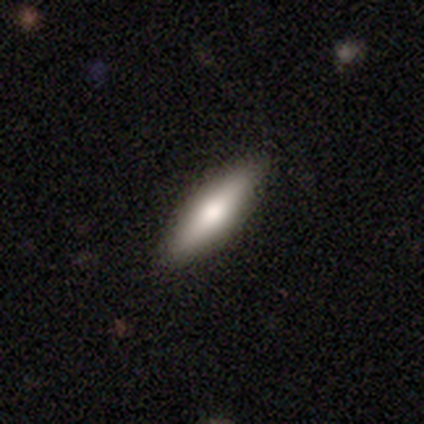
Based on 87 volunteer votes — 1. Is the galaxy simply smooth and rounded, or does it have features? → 64% smooth, 30% featured or disk, 6% star or artifact.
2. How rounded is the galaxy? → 71% cigar-shaped, 29% in between, 0% round.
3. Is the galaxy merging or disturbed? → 89% none, 11% minor disturbance, 0% major disturbance, 0% merger.